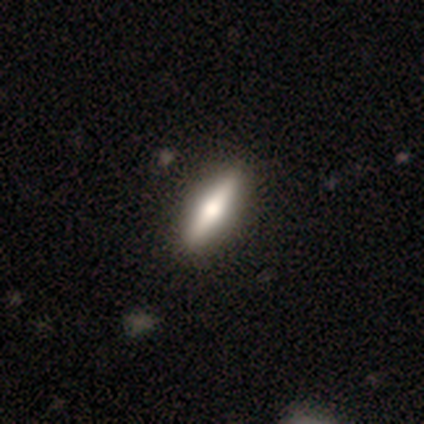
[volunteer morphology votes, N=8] Volunteers were most divided on "smooth or featured": featured or disk: 62%, smooth: 38%, star or artifact: 0%. More confident: edge-on bulge — rounded (100%); merging — none (88%); edge-on disk — yes (80%).